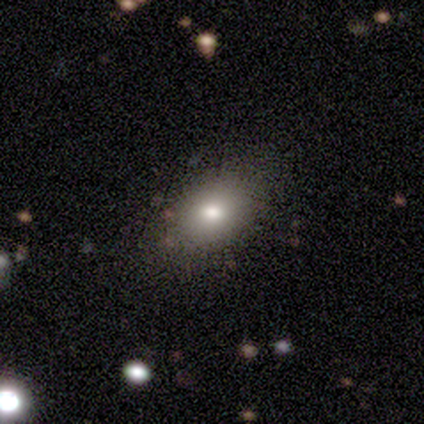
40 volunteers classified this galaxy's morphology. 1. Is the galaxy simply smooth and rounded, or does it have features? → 80% smooth, 12% star or artifact, 8% featured or disk.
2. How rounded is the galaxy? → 62% in between, 38% round, 0% cigar-shaped.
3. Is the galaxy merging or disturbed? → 71% none, 17% minor disturbance, 11% major disturbance, 0% merger.